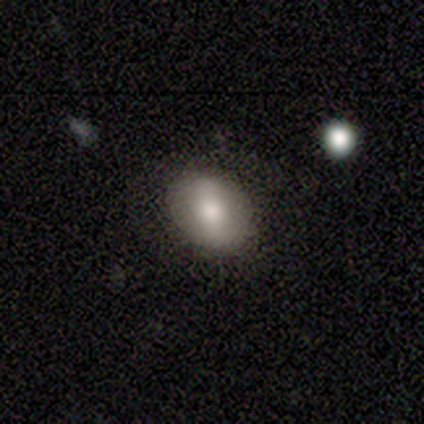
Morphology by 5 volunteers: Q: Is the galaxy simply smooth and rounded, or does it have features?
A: smooth — 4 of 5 (80%).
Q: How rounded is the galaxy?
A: round — 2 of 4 (50%, tied with in between).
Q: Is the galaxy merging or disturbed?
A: none — 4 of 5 (80%).